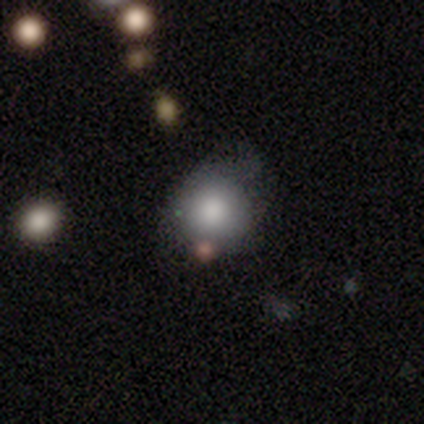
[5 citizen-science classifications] Volunteers were most divided on "merging": none: 40%, minor disturbance: 20%, major disturbance: 20%, merger: 20%. More confident: smooth or featured — smooth (100%); how rounded — round (80%).